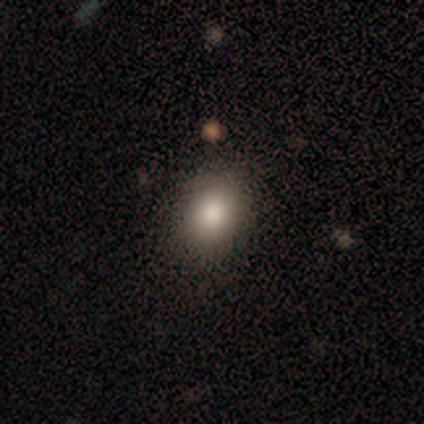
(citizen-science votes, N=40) Smooth or featured? 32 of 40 (80%) said smooth. How rounded? 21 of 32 (66%) said in between. Merging? 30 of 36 (83%) said none.